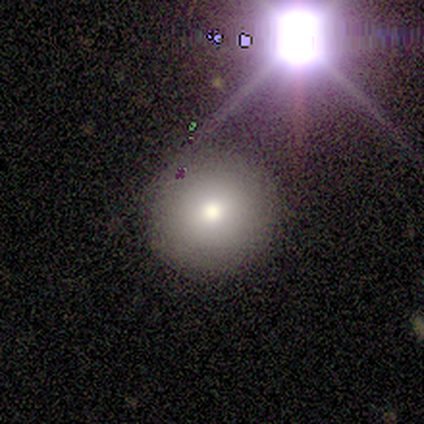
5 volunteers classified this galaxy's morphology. This is clearly a smooth galaxy (80%). How rounded: clearly round (100%). Merging: clearly none (100%).